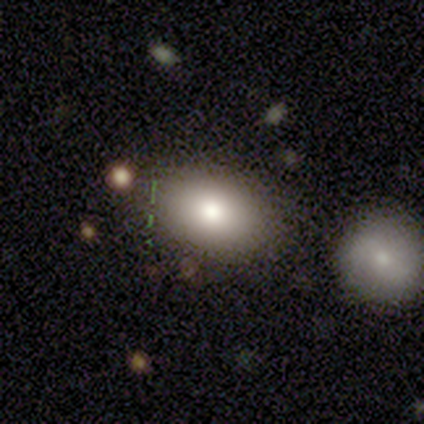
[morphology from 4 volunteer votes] A smooth galaxy with no disk features (75%) that is in between round and cigar-shaped (67%). Merging: none (67%).